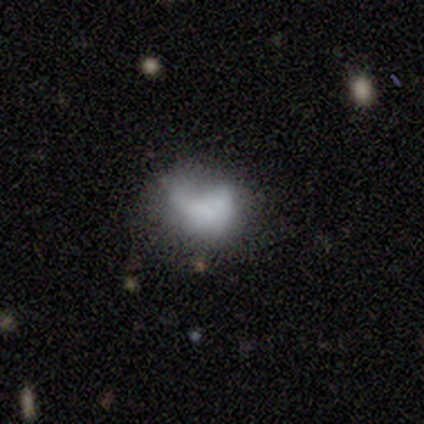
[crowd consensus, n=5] Morphology: type=smooth (100%); roundness=in between (100%); merging=none (60%).